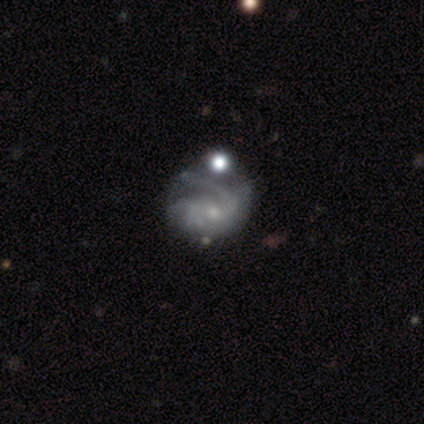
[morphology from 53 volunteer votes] This is clearly a featured or disk galaxy (89%). It is clearly not viewed edge-on (98%). Bar: likely no (72%). Spiral arm pattern: clearly yes (98%). Spiral arm count: marginally 2 (36%). Spiral winding: possibly medium (47%). Central bulge: likely small (65%). Merging: marginally none (39%).